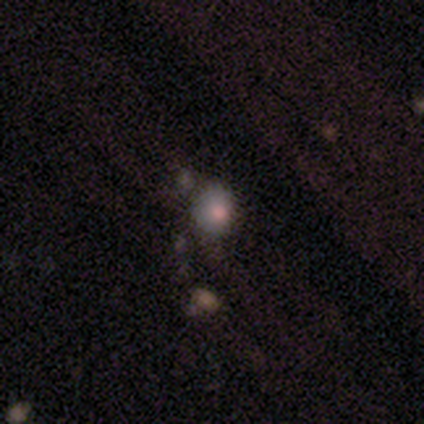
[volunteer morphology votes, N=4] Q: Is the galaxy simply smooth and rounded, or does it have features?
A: smooth — 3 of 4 (75%).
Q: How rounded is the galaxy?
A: in between — 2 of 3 (67%).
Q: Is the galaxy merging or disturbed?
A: none — 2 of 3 (67%).